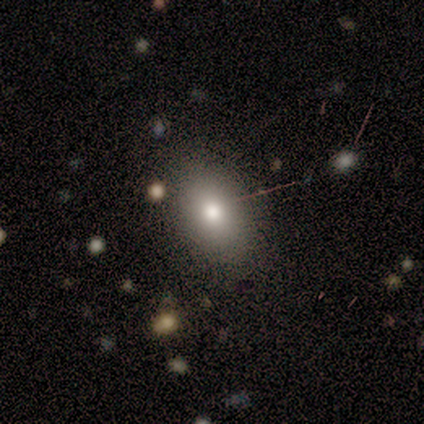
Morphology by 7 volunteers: A smooth galaxy with no disk features (71%) that is round (60%).

Vote fractions:
- Smooth or featured? smooth: 71% / featured or disk: 14% / star or artifact: 14%
- How rounded? round: 60% / in between: 40% / cigar-shaped: 0%
- Merging? none: 100% / minor disturbance: 0% / major disturbance: 0% / merger: 0%